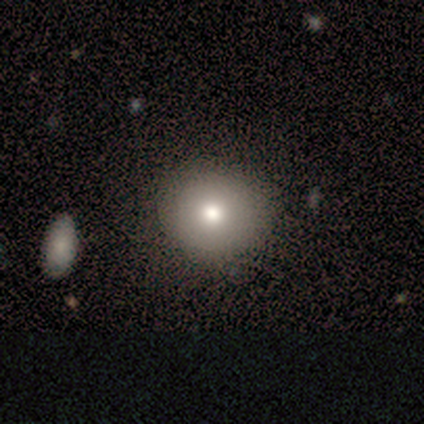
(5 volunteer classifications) This is clearly a smooth galaxy (80%). How rounded: clearly round (100%). Merging: likely none (60%).